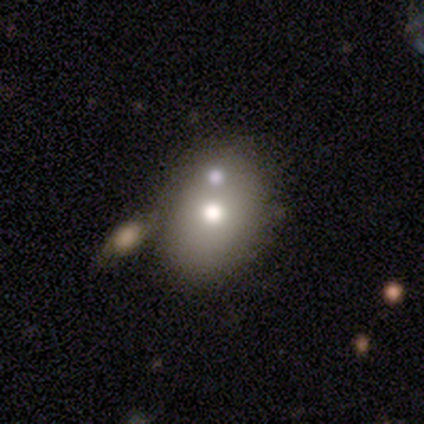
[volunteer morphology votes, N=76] Volunteers were most divided on "merging": merger: 42%, none: 25%, minor disturbance: 6%, major disturbance: 1%. More confident: smooth or featured — smooth (74%); how rounded — in between (62%).